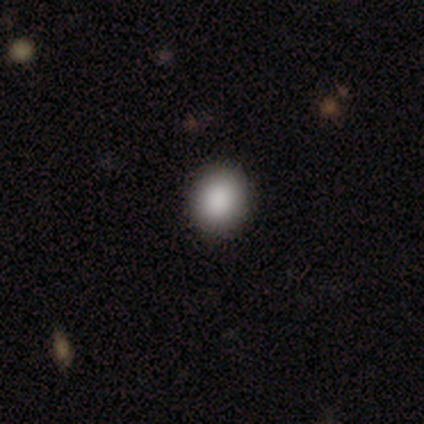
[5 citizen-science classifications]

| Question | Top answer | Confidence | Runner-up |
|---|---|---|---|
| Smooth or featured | smooth | 100% | — |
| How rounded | round | 80% | in between (20%) |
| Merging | none | 100% | — |